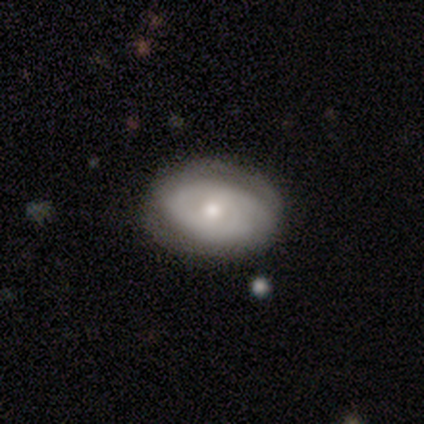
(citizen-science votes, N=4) Morphology: type=smooth (50%, tied with featured or disk); roundness=in between (100%); merging=none (75%).